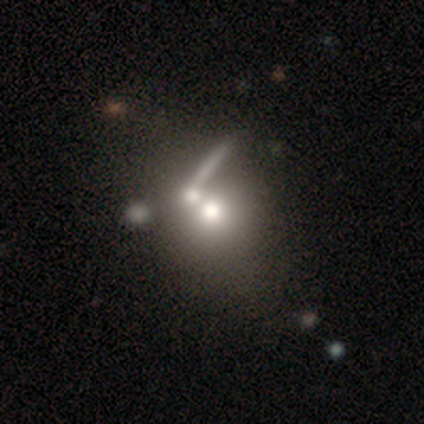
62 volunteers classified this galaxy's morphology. Smooth or featured?
  - smooth: 47% *
  - featured or disk: 37%
  - star or artifact: 16%
How rounded?
  - round: 66% *
  - in between: 31%
  - cigar-shaped: 3%
Merging?
  - merger: 56% *
  - none: 31%
  - major disturbance: 8%
  - minor disturbance: 6%